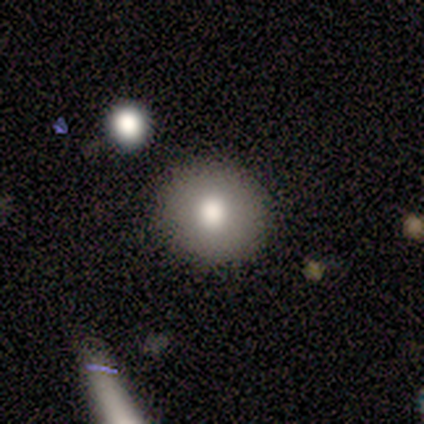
Morphology: type=smooth (75%); roundness=round (100%); merging=none (75%).